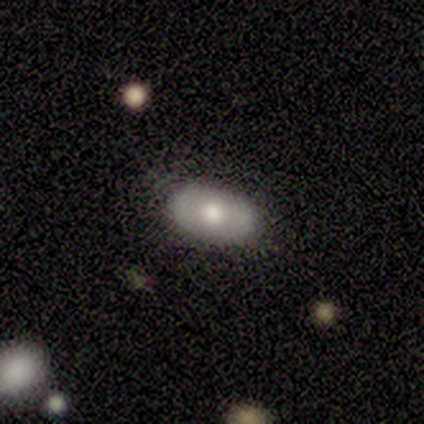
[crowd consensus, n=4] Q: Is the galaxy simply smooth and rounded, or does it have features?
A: featured or disk — 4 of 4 (100%).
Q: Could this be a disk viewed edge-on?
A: no — 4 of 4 (100%).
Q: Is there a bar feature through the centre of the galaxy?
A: no — 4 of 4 (100%).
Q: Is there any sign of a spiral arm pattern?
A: no — 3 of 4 (75%).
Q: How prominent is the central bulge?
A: large — 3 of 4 (75%).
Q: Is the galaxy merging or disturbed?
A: none — 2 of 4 (50%, tied with minor disturbance).